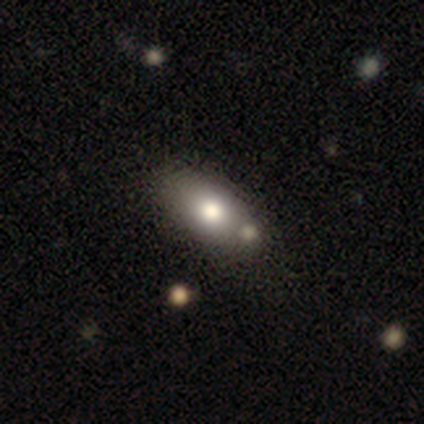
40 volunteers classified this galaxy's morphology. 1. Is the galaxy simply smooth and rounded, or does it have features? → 78% smooth, 12% featured or disk, 10% star or artifact.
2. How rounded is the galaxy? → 97% in between, 3% round, 0% cigar-shaped.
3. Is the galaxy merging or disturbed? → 44% none, 31% merger, 3% major disturbance, 0% minor disturbance.